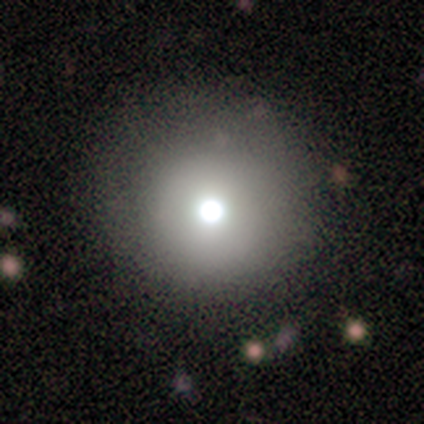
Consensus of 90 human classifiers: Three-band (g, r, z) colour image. It shows a smooth galaxy with no disk features (64%) that is round (100%). Merging: none (82%).